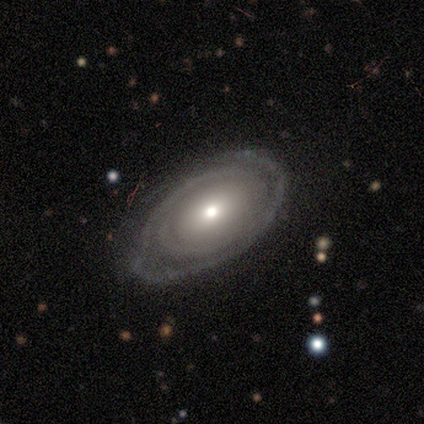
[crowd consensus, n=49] featured or disk 76%, smooth 20%, star or artifact 4%. Down the decision tree: edge-on disk — no (95%); bar — no (91%); spiral arms — yes (71%); spiral arm count — 1 (32%, tied with 2); spiral winding — tight (88%); bulge size — moderate (60%); merging — none (68%).